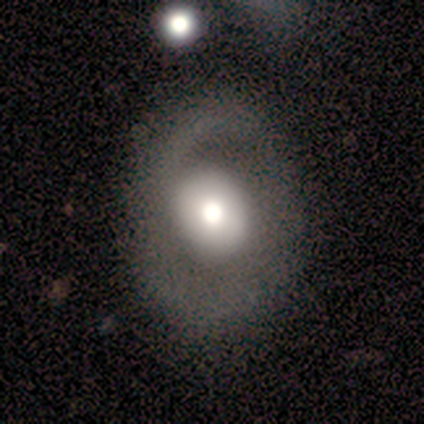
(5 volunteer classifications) smooth_or_featured: featured or disk (p=0.60) [alt: smooth p=0.20]
disk_edge_on: no (p=1.00)
bar: no (p=1.00)
has_spiral_arms: no (p=1.00)
bulge_size: large (p=0.67) [alt: moderate p=0.33]
merging: none (p=0.75) [alt: major disturbance p=0.25]